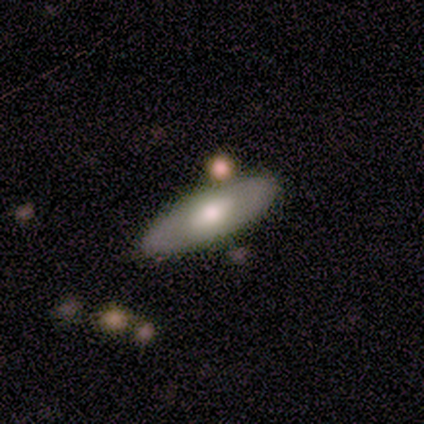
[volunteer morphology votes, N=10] A smooth galaxy with no disk features (60%) that is in between round and cigar-shaped (67%). Merging: none (90%).